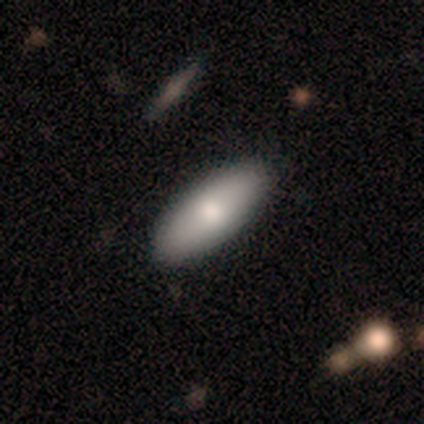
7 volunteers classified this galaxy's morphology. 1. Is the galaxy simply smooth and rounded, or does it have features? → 57% smooth, 43% featured or disk, 0% star or artifact.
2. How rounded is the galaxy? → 75% in between, 25% cigar-shaped, 0% round.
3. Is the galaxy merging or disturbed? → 100% none, 0% minor disturbance, 0% major disturbance, 0% merger.